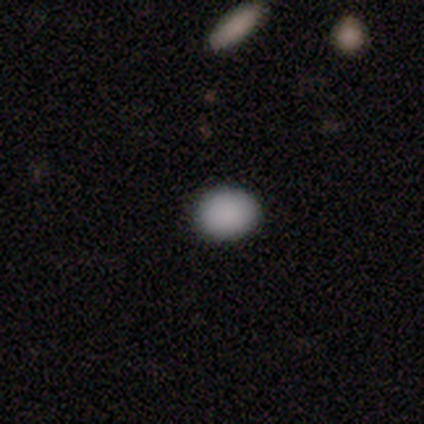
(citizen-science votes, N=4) Volunteers were most divided on "how rounded": in between: 75%, round: 25%, cigar-shaped: 0%. More confident: smooth or featured — smooth (100%); merging — none (100%).